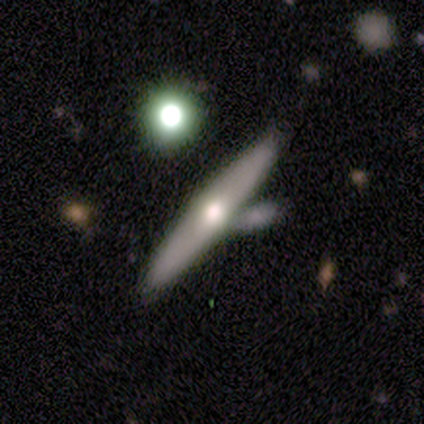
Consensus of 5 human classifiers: A smooth galaxy with no disk features (60%) that is cigar-shaped (100%). Merging: none (80%).